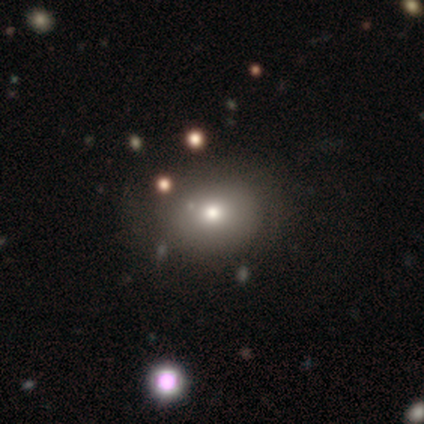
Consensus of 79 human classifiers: Smooth or featured? smooth (78%)
How rounded? round (66%)
Merging? none (37%)